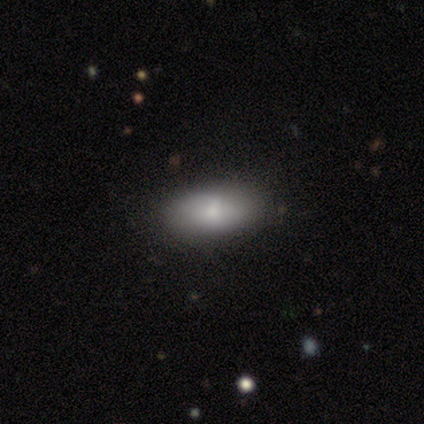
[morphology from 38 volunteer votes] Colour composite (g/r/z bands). It shows a smooth galaxy with no disk features (82%) that is in between round and cigar-shaped (90%). Merging: none (75%).